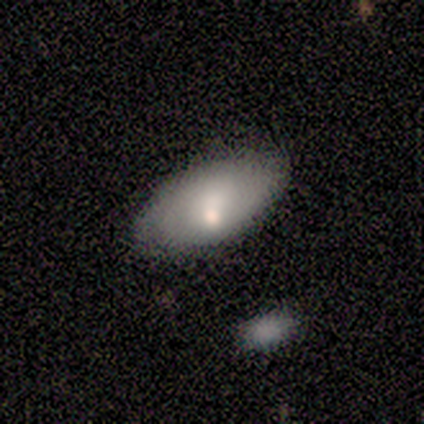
Q: Smooth or featured?
A: smooth (67%); runner-up: featured or disk (33%)
Q: How rounded?
A: in between (100%)
Q: Merging?
A: minor disturbance (67%); runner-up: none (33%)